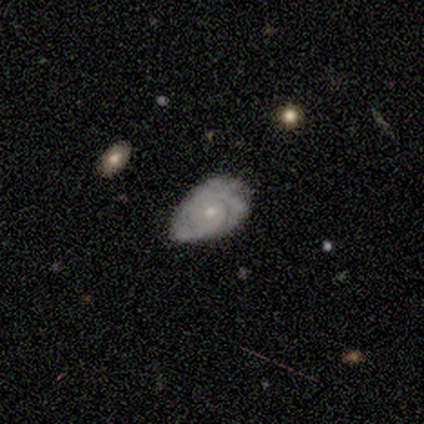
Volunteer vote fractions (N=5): Q: Smooth or featured?
A: featured or disk (40%); tied with: star or artifact (40%)
Q: Edge-on disk?
A: no (100%)
Q: Bar?
A: weak (50%); tied with: no (50%)
Q: Spiral arms?
A: yes (50%); tied with: no (50%)
Q: Spiral winding?
A: tight (100%)
Q: Spiral arm count?
A: 2 (100%)
Q: Bulge size?
A: moderate (50%); tied with: none (50%)
Q: Merging?
A: minor disturbance (67%); runner-up: none (33%)